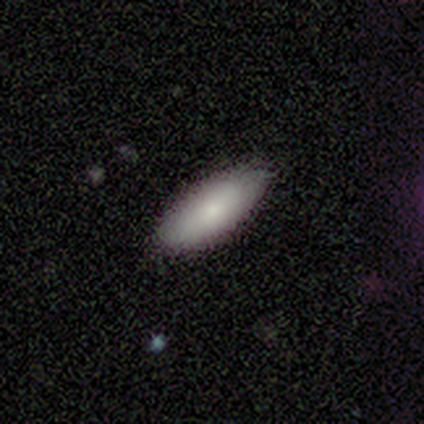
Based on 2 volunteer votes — Smooth or featured?
  - smooth: 100% *
  - featured or disk: 0%
  - star or artifact: 0%
How rounded?
  - in between: 50% * (tied)
  - cigar-shaped: 50% * (tied)
  - round: 0%
Merging?
  - none: 100% *
  - minor disturbance: 0%
  - major disturbance: 0%
  - merger: 0%